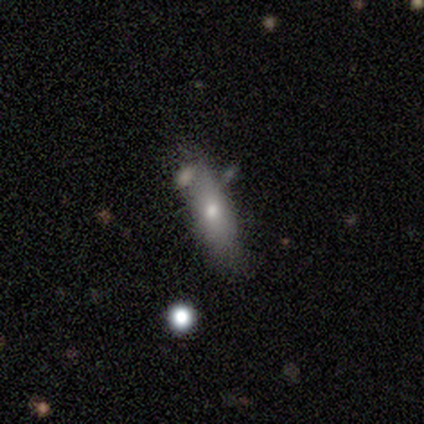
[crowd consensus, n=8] Smooth or featured? 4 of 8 (50%) said smooth. How rounded? 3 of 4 (75%) said cigar-shaped. Merging? 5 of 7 (71%) said none.